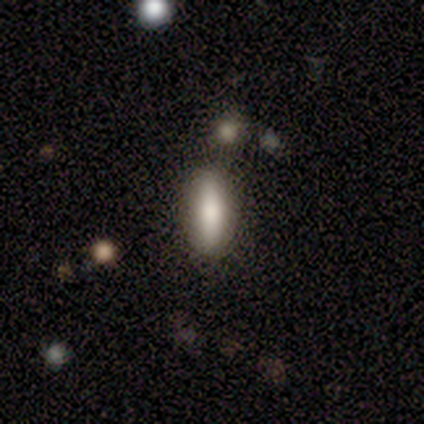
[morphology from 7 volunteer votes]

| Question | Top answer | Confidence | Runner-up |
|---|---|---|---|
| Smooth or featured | smooth | 86% | featured or disk (14%) |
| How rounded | cigar-shaped | 67% | in between (33%) |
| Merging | none | 86% | merger (14%) |